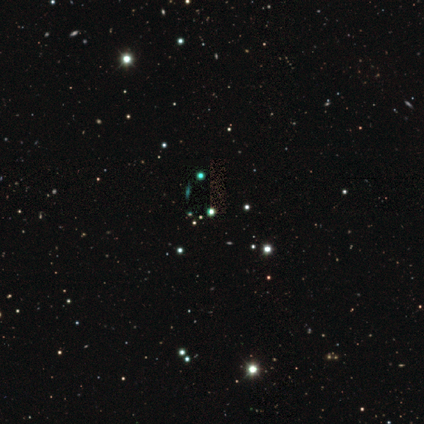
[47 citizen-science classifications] Overall: star or artifact (83%).